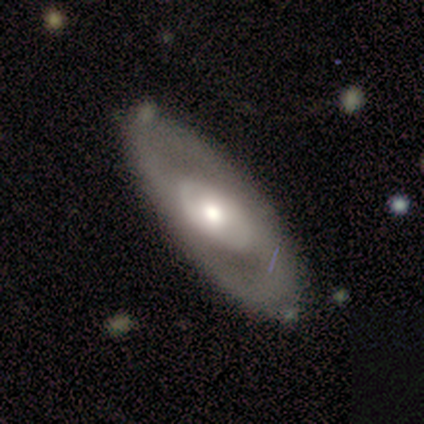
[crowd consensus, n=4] Q: Smooth or featured?
A: featured or disk (100%)
Q: Edge-on disk?
A: no (75%); runner-up: yes (25%)
Q: Bar?
A: no (67%); runner-up: strong (33%)
Q: Spiral arms?
A: no (67%); runner-up: yes (33%)
Q: Bulge size?
A: small (67%); runner-up: moderate (33%)
Q: Merging?
A: none (100%)